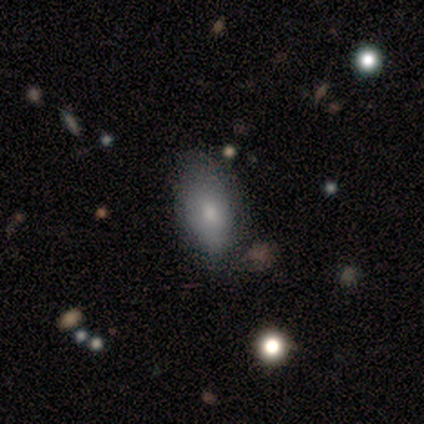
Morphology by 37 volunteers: Smooth or featured? 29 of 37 (78%) said smooth. How rounded? 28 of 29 (97%) said in between. Merging? 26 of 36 (72%) said none.